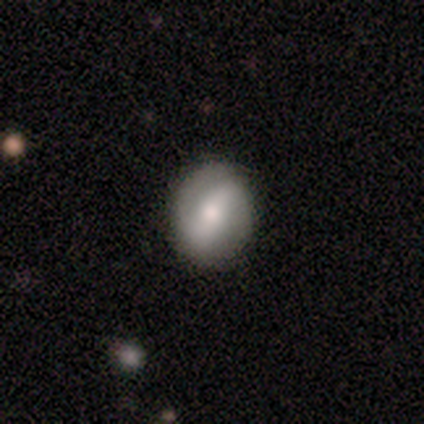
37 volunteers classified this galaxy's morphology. featured or disk 57%, smooth 35%, star or artifact 8%. Down the decision tree: edge-on disk — no (95%); bar — strong (55%); spiral arms — yes (85%); spiral arm count — 2 (88%); spiral winding — medium (71%); bulge size — moderate (60%); merging — none (88%).